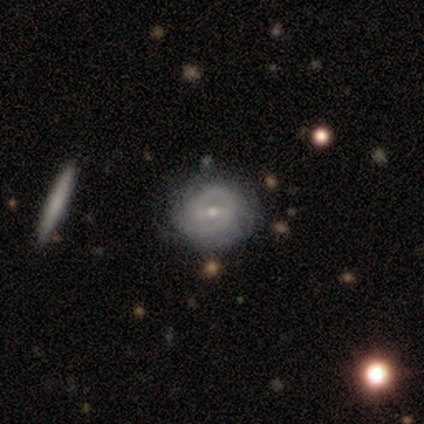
This appears to be a featured or disk galaxy (75%) with a weak bar (67%), 2 (83%) medium (50%) spiral arms (100%) and a small central bulge (67%). Merging: none (100%).